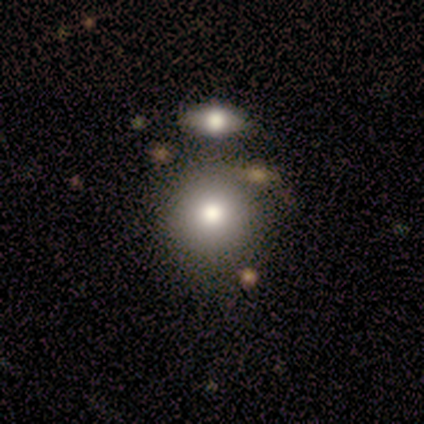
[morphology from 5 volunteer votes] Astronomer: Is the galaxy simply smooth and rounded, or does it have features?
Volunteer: smooth — 100%.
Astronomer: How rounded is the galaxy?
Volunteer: round — 80%.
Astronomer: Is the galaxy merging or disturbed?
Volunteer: none — 60%.